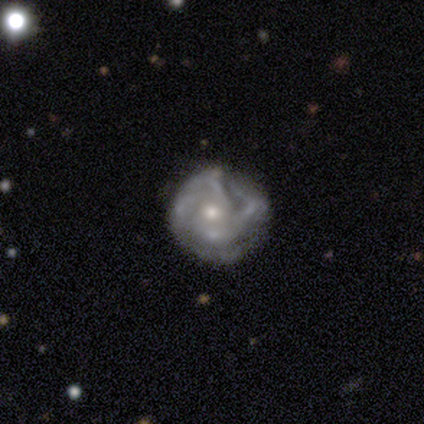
Smooth or featured?
  - featured or disk: 100% *
  - smooth: 0%
  - star or artifact: 0%
Edge-on disk?
  - no: 100% *
  - yes: 0%
Bar?
  - no: 100% *
  - strong: 0%
  - weak: 0%
Spiral arms?
  - yes: 80% *
  - no: 20%
Spiral winding?
  - tight: 50% *
  - medium: 25%
  - loose: 25%
Spiral arm count?
  - can't tell: 75% *
  - 2: 25%
  - 1: 0%
  - 3: 0%
  - 4: 0%
  - more than 4: 0%
Bulge size?
  - small: 80% *
  - moderate: 20%
  - dominant: 0%
  - large: 0%
  - none: 0%
Merging?
  - minor disturbance: 60% *
  - none: 20%
  - merger: 20%
  - major disturbance: 0%